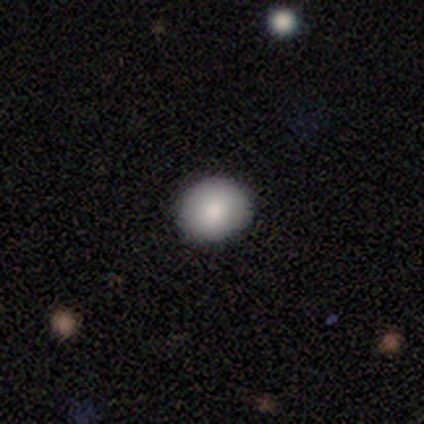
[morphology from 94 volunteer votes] Smooth or featured?
  - smooth: 85% *
  - star or artifact: 9%
  - featured or disk: 6%
How rounded?
  - round: 69% *
  - in between: 31%
  - cigar-shaped: 0%
Merging?
  - none: 88% *
  - minor disturbance: 12%
  - major disturbance: 0%
  - merger: 0%